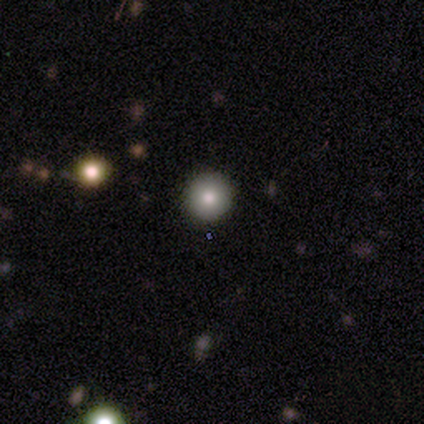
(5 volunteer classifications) Smooth or featured? smooth (100%)
How rounded? round (100%)
Merging? none (100%)